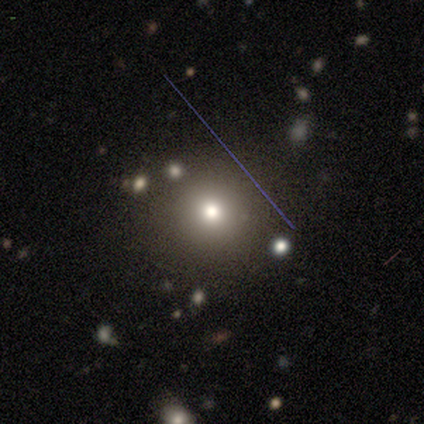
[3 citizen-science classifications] Smooth or featured?
  - star or artifact: 67% *
  - smooth: 33%
  - featured or disk: 0%